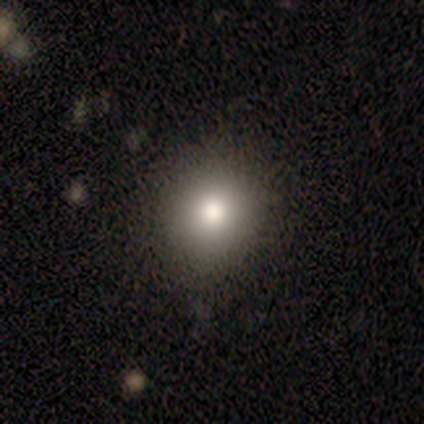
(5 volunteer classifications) smooth_or_featured: smooth (p=0.60) [alt: featured or disk p=0.20]
how_rounded: round (p=0.67) [alt: in between p=0.33]
merging: none (p=0.50) [tied with: minor disturbance p=0.50]